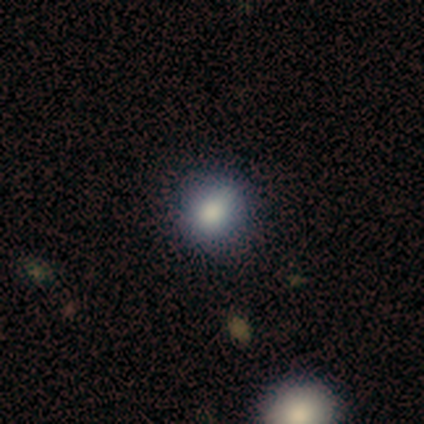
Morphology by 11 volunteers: A smooth galaxy with no disk features (91%) that is round (90%).

Vote fractions:
- Smooth or featured? smooth: 91% / star or artifact: 9% / featured or disk: 0%
- How rounded? round: 90% / in between: 10% / cigar-shaped: 0%
- Merging? none: 80% / minor disturbance: 10% / major disturbance: 10% / merger: 0%